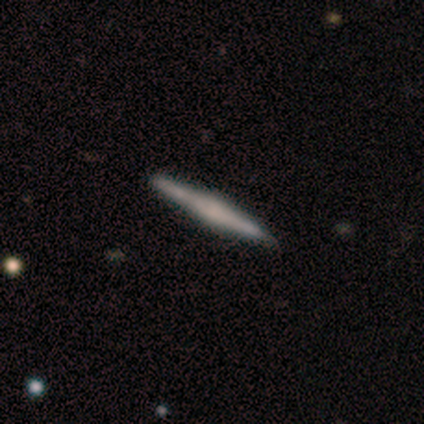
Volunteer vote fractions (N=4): Overall: featured or disk (75%). Edge-on disk: yes (100%). Edge-on bulge: rounded (67%; none 33%). Merging: none (67%; minor disturbance 33%).